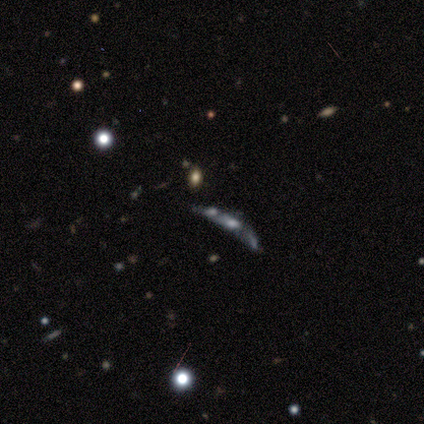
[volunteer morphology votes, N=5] Q: Smooth or featured?
A: featured or disk (60%); runner-up: smooth (20%)
Q: Edge-on disk?
A: no (67%); runner-up: yes (33%)
Q: Bar?
A: no (100%)
Q: Spiral arms?
A: no (100%)
Q: Bulge size?
A: large (50%); tied with: small (50%)
Q: Merging?
A: merger (75%); runner-up: none (25%)